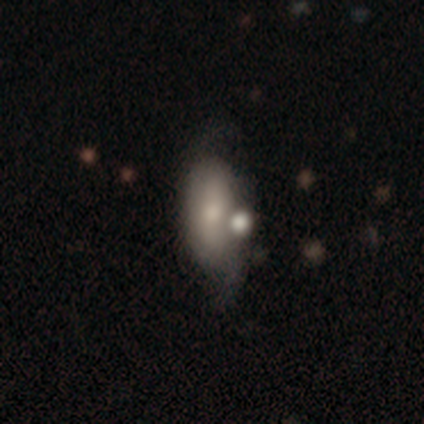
Overall: smooth (57%; featured or disk 32%). How rounded: in between (78%). Merging: none (42%; merger 31%).